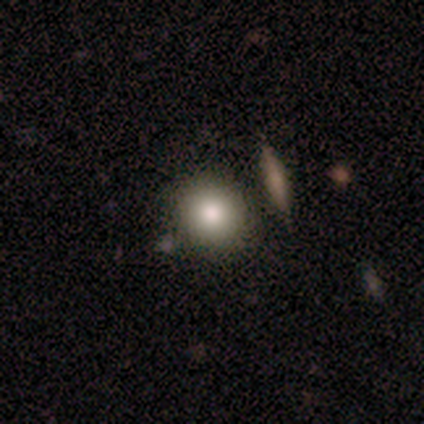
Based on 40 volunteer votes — Overall: smooth (92%). How rounded: round (95%). Merging: none (89%).